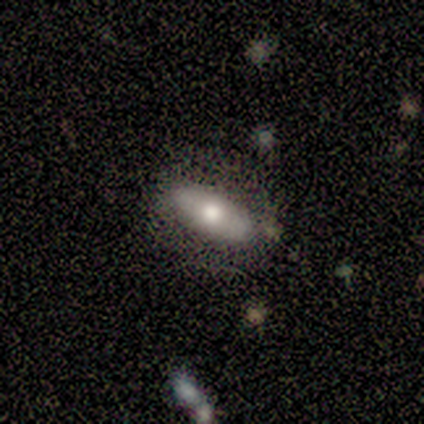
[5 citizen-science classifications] A smooth galaxy with no disk features (60%) that is in between round and cigar-shaped (67%).

Vote fractions:
- Smooth or featured? smooth: 60% / featured or disk: 40% / star or artifact: 0%
- How rounded? in between: 67% / cigar-shaped: 33% / round: 0%
- Merging? none: 80% / minor disturbance: 20% / major disturbance: 0% / merger: 0%